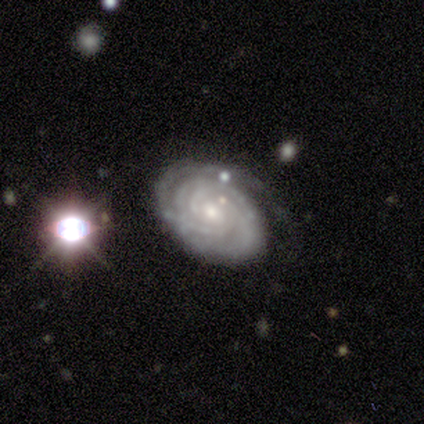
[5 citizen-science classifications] This is clearly a featured or disk galaxy (100%). It is clearly not viewed edge-on (100%). Bar: clearly no (80%). Spiral arm pattern: clearly yes (100%). Spiral arm count: marginally 4 (40%, tied with can't tell). Spiral winding: clearly tight (80%). Central bulge: likely small (60%). Merging: clearly none (80%).